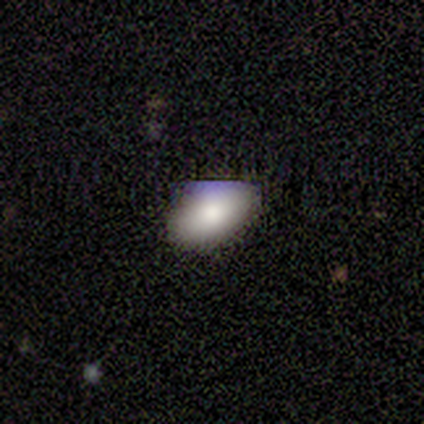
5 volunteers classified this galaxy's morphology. Overall: smooth (100%). How rounded: in between (80%). Merging: none (60%; minor disturbance 20%).